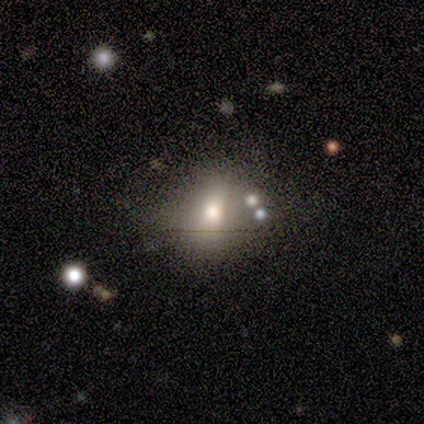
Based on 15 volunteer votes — smooth 73%, featured or disk 13%, star or artifact 13%. Down the decision tree: how rounded — round (55%); merging — none (46%, tied with minor disturbance).